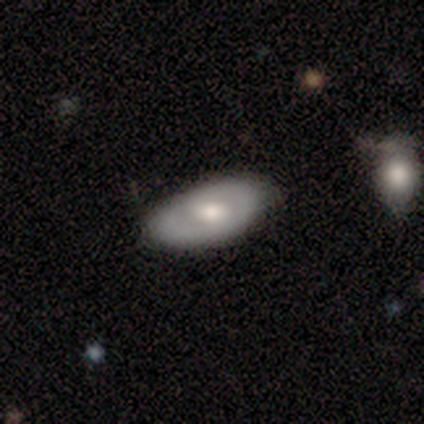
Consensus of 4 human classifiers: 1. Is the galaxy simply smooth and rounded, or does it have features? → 75% featured or disk, 25% smooth, 0% star or artifact.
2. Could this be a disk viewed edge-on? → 100% no, 0% yes.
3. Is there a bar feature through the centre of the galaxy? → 67% weak, 33% no, 0% strong.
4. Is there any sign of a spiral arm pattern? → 100% no, 0% yes.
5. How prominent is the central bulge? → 67% moderate, 33% small, 0% dominant, 0% large, 0% none.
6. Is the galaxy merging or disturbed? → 100% none, 0% minor disturbance, 0% major disturbance, 0% merger.